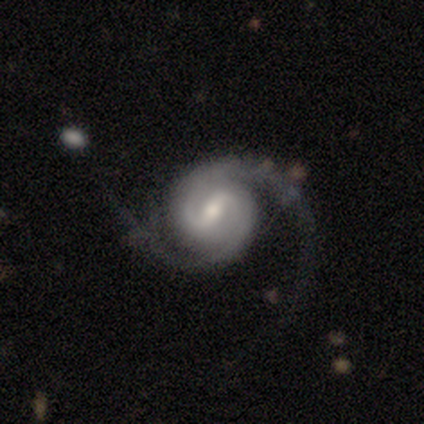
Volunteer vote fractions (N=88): featured or disk 91%, smooth 6%, star or artifact 3%. Down the decision tree: edge-on disk — no (99%); bar — weak (54%); spiral arms — yes (97%); spiral arm count — 2 (95%); spiral winding — medium (51%); bulge size — moderate (58%); merging — none (73%).